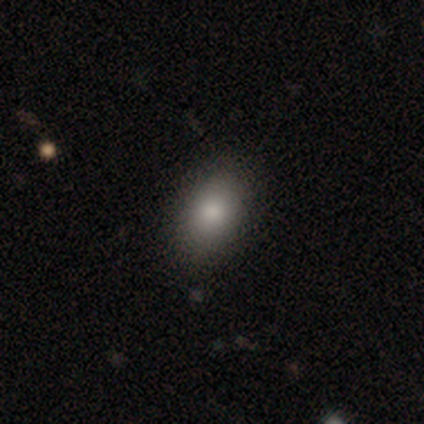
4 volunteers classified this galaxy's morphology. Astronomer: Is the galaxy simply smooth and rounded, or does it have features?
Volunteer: smooth — 75%.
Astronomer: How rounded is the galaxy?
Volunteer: in between — 67%.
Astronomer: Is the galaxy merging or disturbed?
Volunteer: none — 100%.